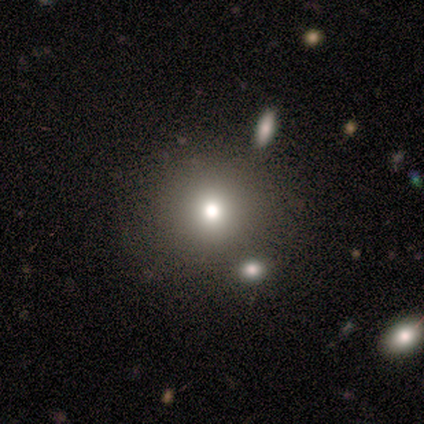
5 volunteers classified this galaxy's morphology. smooth 80%, star or artifact 20%, featured or disk 0%. Down the decision tree: how rounded — round (100%); merging — none (100%).